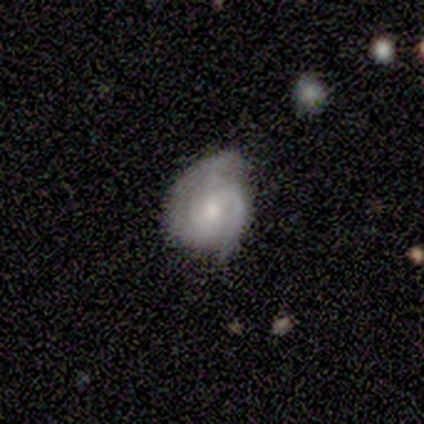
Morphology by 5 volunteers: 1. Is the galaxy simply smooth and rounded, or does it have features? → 80% featured or disk, 20% smooth, 0% star or artifact.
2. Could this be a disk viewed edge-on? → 100% no, 0% yes.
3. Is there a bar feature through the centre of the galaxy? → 100% no, 0% strong, 0% weak.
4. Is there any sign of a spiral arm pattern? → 100% yes, 0% no.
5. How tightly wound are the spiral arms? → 50% tight (tied), 50% medium (tied), 0% loose.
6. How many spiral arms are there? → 50% 2, 25% 3, 25% can't tell, 0% 1, 0% 4, 0% more than 4.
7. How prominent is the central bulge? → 75% small, 25% moderate, 0% dominant, 0% large, 0% none.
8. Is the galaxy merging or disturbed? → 80% minor disturbance, 20% none, 0% major disturbance, 0% merger.